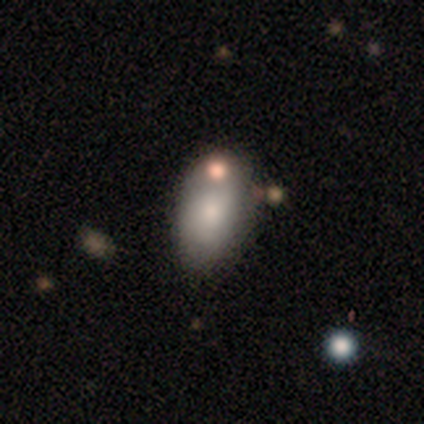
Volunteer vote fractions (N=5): Smooth or featured?
  - smooth: 80% *
  - featured or disk: 20%
  - star or artifact: 0%
How rounded?
  - in between: 100% *
  - round: 0%
  - cigar-shaped: 0%
Merging?
  - none: 40% * (tied)
  - minor disturbance: 40% * (tied)
  - merger: 20%
  - major disturbance: 0%